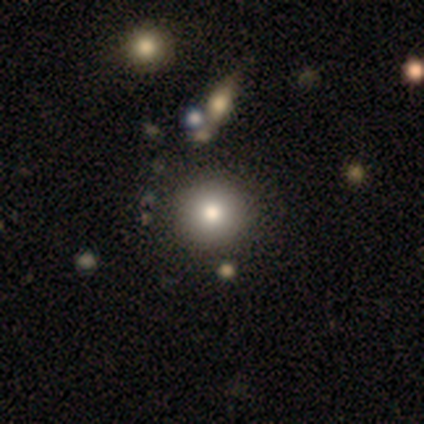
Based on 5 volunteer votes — smooth_or_featured: smooth (p=0.80) [alt: featured or disk p=0.20]
how_rounded: round (p=1.00)
merging: none (p=0.80) [alt: minor disturbance p=0.20]